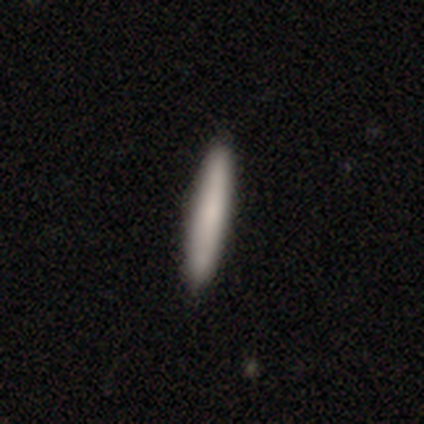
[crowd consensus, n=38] Morphology: type=smooth (84%); roundness=cigar-shaped (100%); merging=none (71%).